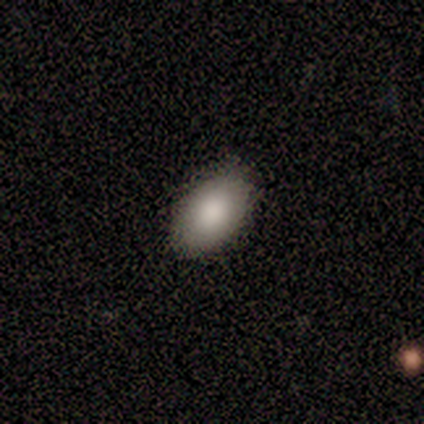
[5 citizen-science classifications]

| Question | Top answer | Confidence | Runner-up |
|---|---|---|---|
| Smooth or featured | smooth | 100% | — |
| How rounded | in between | 100% | — |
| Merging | none | 100% | — |